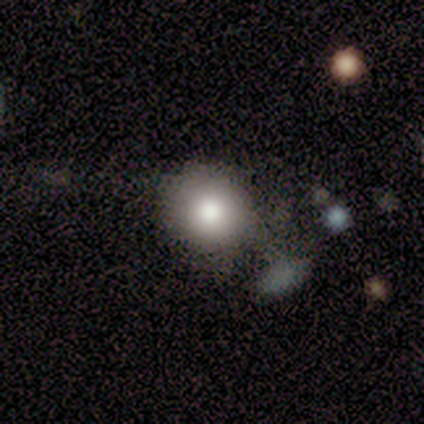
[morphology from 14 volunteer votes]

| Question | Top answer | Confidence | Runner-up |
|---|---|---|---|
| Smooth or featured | smooth | 86% | featured or disk (7%) |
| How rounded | round | 92% | in between (8%) |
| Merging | none | 62% | minor disturbance (23%) |